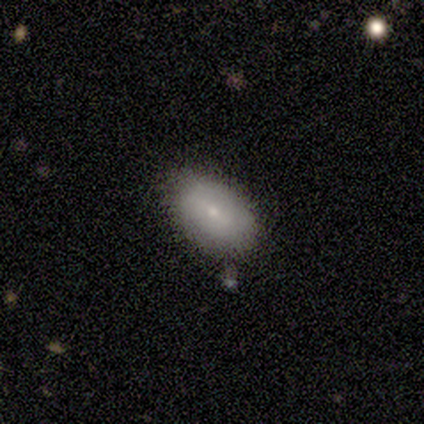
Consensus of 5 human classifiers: A smooth galaxy with no disk features (100%) that is in between round and cigar-shaped (100%). Merging: none (60%).